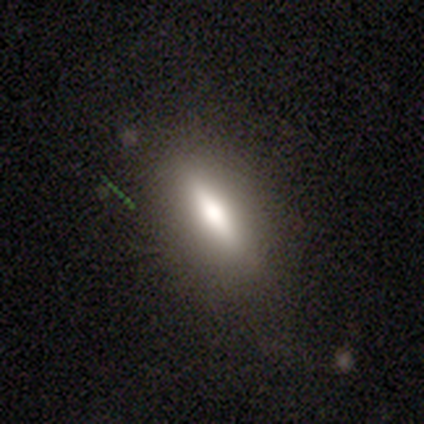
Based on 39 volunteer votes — Smooth or featured? 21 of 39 (54%) said smooth. How rounded? 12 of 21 (57%) said cigar-shaped. Merging? 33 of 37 (89%) said none.